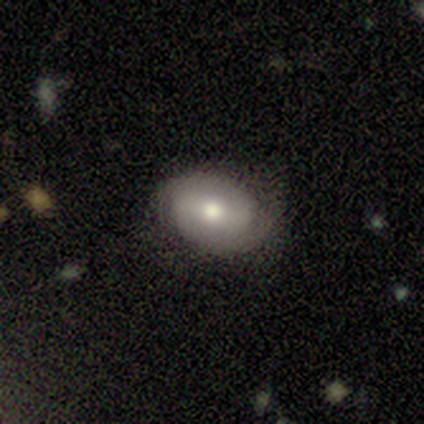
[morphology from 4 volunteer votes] Smooth or featured? featured or disk (75%)
Edge-on disk? no (67%)
Bar? strong (50%, tied with no)
Spiral arms? yes (50%, tied with no)
Spiral winding? tight (100%)
Spiral arm count? 2 (100%)
Bulge size? large (50%, tied with moderate)
Merging? none (100%)